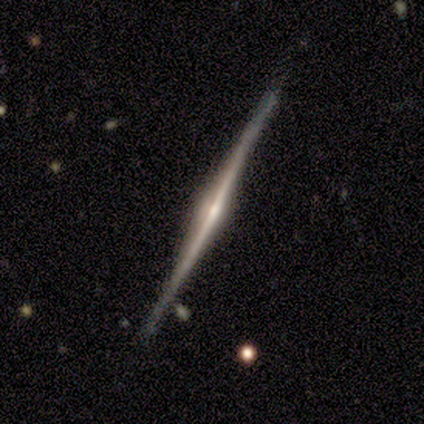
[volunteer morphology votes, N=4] Smooth or featured: featured or disk — 100%
Edge-on disk: yes — 100%
Edge-on bulge: rounded — 75% (boxy — 25%)
Merging: none — 100%